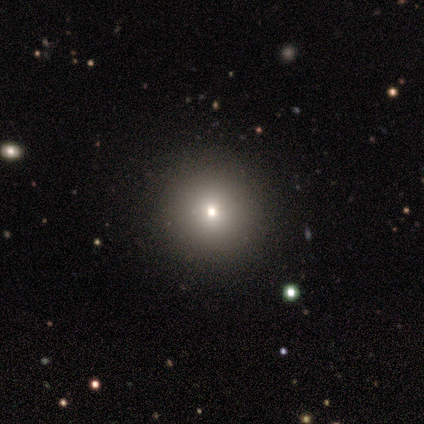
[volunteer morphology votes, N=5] Smooth or featured: smooth — 60% (star or artifact — 40%)
How rounded: round — 100%
Merging: none — 100%